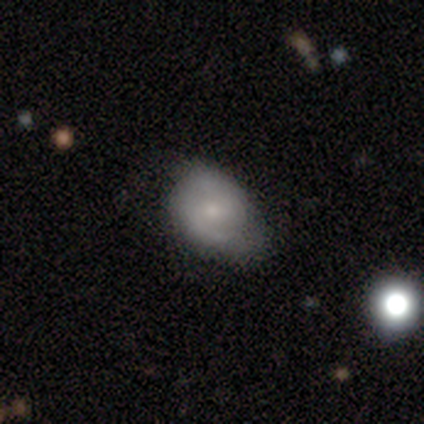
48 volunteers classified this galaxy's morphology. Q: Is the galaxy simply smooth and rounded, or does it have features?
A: smooth — 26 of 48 (54%).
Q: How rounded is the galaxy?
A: in between — 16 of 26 (62%).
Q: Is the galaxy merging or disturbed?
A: none — 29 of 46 (63%).